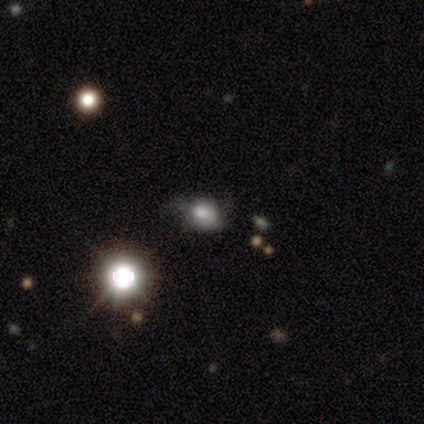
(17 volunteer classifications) A star or artifact, not a galaxy (41%).